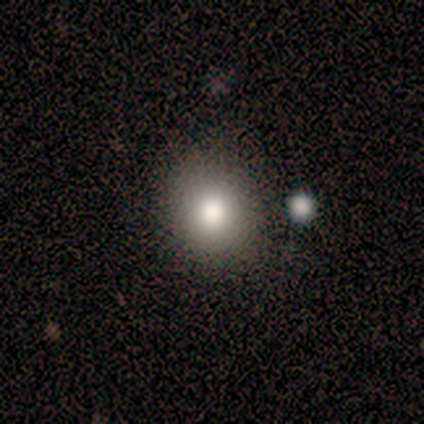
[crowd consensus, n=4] smooth_or_featured: smooth (p=1.00)
how_rounded: round (p=0.50) [tied with: in between p=0.50]
merging: none (p=0.50) [tied with: minor disturbance p=0.50]